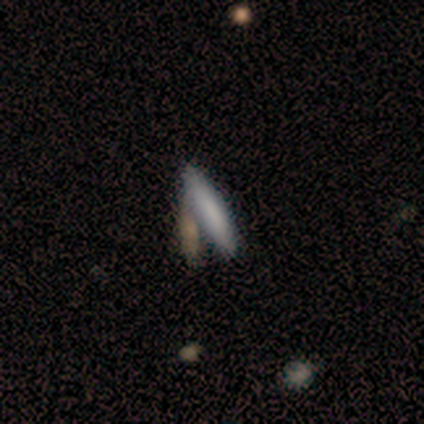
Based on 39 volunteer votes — This appears to be a smooth galaxy with no disk features (77%) that is cigar-shaped (80%). Merging: none (59%).